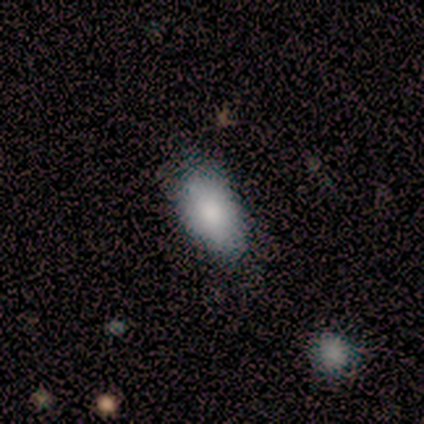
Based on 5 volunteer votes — Morphology: type=smooth (60%); roundness=in between (100%); merging=none (60%).